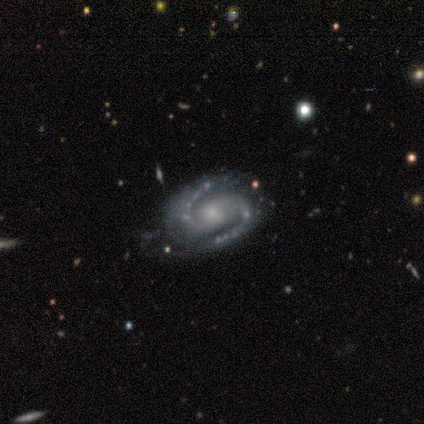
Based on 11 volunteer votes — This is clearly a featured or disk galaxy (100%). It is clearly not viewed edge-on (100%). Bar: possibly weak (45%). Spiral arm pattern: clearly yes (100%). Spiral arm count: clearly 2 (100%). Spiral winding: possibly medium (55%). Central bulge: possibly moderate (55%). Merging: possibly none (55%).